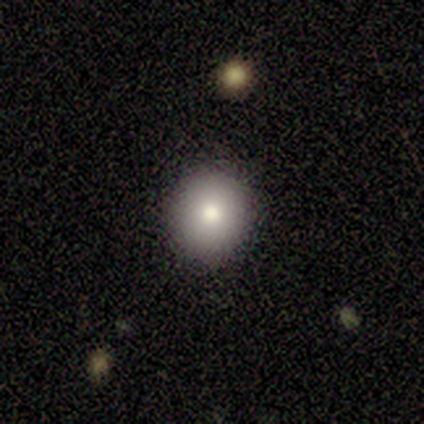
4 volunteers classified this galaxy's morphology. A smooth galaxy with no disk features (50%) that is round (100%).

Vote fractions:
- Smooth or featured? smooth: 50% / featured or disk: 25% / star or artifact: 25%
- How rounded? round: 100% / in between: 0% / cigar-shaped: 0%
- Merging? none: 100% / minor disturbance: 0% / major disturbance: 0% / merger: 0%